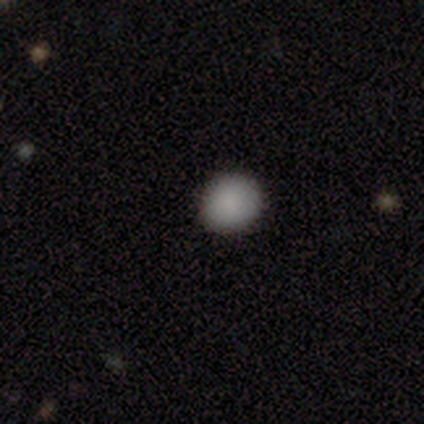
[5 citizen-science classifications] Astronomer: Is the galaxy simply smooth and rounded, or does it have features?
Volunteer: smooth — 100%.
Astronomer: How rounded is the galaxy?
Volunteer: round — 80%.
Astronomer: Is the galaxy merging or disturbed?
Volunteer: none — 80%.